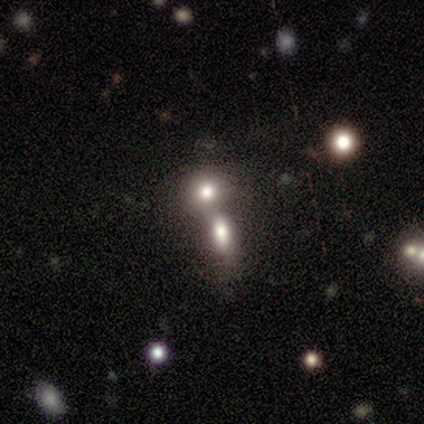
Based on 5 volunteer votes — Smooth or featured: smooth — 60% (featured or disk — 20%)
How rounded: round — 67% (cigar-shaped — 33%)
Merging: merger — 100%